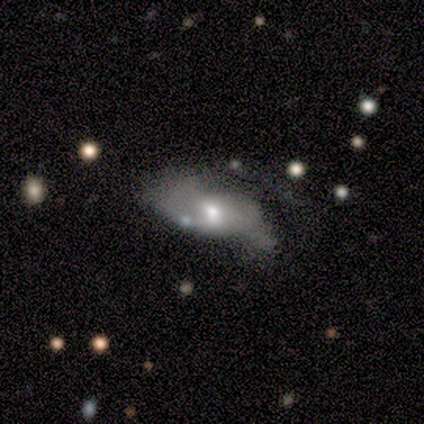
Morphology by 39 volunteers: Smooth or featured?
  - featured or disk: 56% *
  - smooth: 44%
  - star or artifact: 0%
Edge-on disk?
  - no: 95% *
  - yes: 5%
Bar?
  - no: 76% *
  - weak: 14%
  - strong: 10%
Spiral arms?
  - no: 57% *
  - yes: 43%
Bulge size?
  - moderate: 57% *
  - small: 24%
  - large: 10%
  - dominant: 5%
  - none: 5%
Merging?
  - major disturbance: 44% *
  - none: 28%
  - minor disturbance: 26%
  - merger: 3%